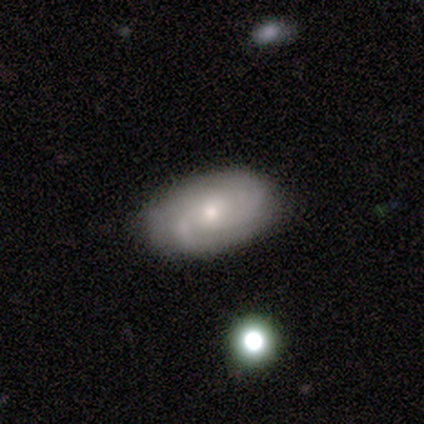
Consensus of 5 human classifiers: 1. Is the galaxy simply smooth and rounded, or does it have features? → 100% featured or disk, 0% smooth, 0% star or artifact.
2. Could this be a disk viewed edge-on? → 80% no, 20% yes.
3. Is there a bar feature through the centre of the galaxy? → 100% no, 0% strong, 0% weak.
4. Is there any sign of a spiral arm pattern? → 100% yes, 0% no.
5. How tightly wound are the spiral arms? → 75% medium, 25% tight, 0% loose.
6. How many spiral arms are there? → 50% can't tell, 25% 1, 25% 3, 0% 2, 0% 4, 0% more than 4.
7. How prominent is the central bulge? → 50% moderate, 25% dominant, 25% small, 0% large, 0% none.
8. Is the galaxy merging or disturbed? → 100% none, 0% minor disturbance, 0% major disturbance, 0% merger.